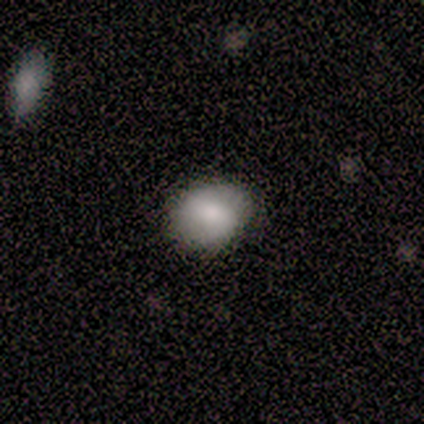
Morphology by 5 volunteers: type=smooth (100%); roundness=in between (60%); merging=none (100%).